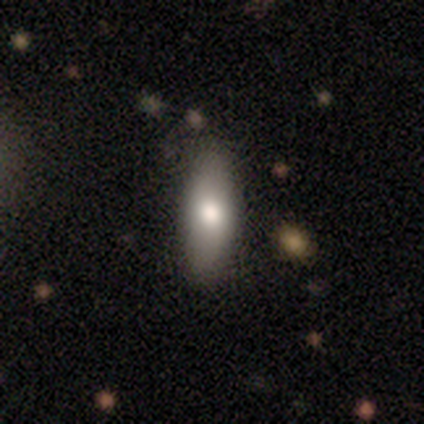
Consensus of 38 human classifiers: Smooth or featured? smooth (79%)
How rounded? in between (80%)
Merging? none (62%)